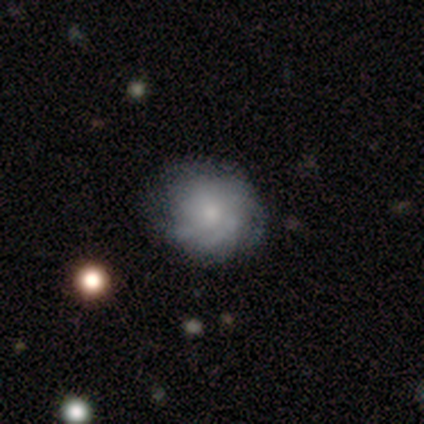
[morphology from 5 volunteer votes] smooth-or-featured: featured or disk: 80% | smooth: 20% | star or artifact: 0%
  disk-edge-on: no: 100% | yes: 0%
    bar: no: 75% | weak: 25% | strong: 0%
    has-spiral-arms: yes: 100% | no: 0%
      spiral-winding: tight: 75% | medium: 25% | loose: 0%
      spiral-arm-count: can't tell: 50% | 2: 25% | 3: 25% | 1: 0% | 4: 0% | more than 4: 0%
    bulge-size: moderate: 50% | large: 25% | small: 25% | dominant: 0% | none: 0%
  merging: none: 100% | minor disturbance: 0% | major disturbance: 0% | merger: 0%